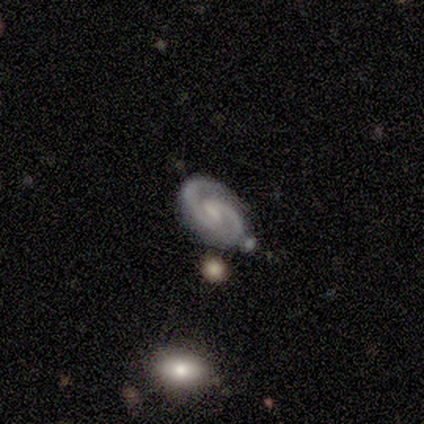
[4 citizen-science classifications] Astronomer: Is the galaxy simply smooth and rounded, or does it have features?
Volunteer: featured or disk — 75%.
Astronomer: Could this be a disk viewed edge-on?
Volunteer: no — 100%.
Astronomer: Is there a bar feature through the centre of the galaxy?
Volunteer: weak — 67%.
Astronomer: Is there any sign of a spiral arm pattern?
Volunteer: yes — 100%.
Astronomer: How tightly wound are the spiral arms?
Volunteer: tight — 67%.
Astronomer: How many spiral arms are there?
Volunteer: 2 — 100%.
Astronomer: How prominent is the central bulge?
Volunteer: none — 67%.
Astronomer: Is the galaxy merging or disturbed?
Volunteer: none — 100%.